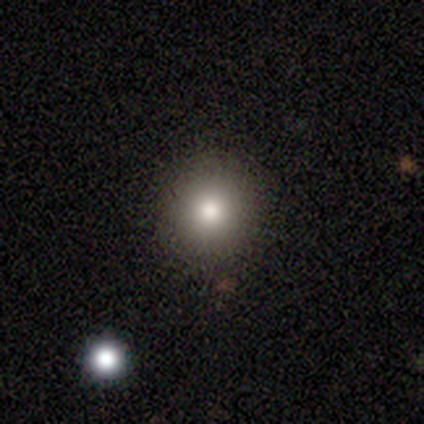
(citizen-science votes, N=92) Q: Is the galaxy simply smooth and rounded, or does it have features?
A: smooth — 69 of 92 (75%).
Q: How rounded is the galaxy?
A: round — 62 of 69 (90%).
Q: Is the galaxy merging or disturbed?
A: none — 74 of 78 (95%).